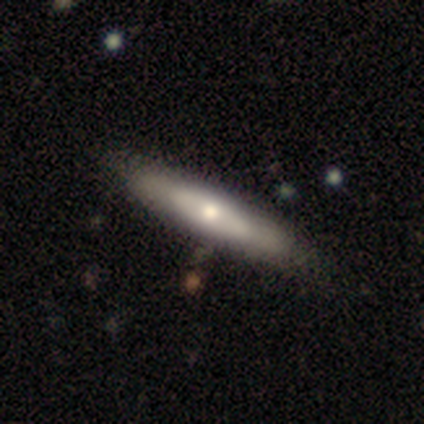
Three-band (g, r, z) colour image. It shows a smooth galaxy with no disk features (54%) that is cigar-shaped (71%). Merging: none (50%).